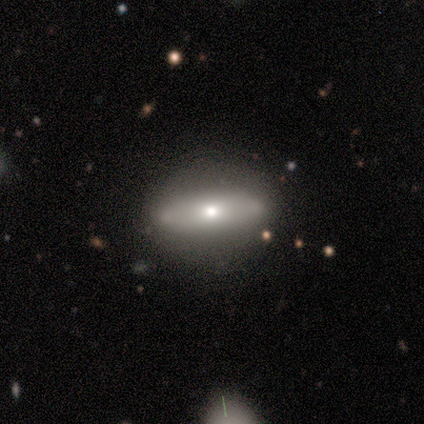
Smooth or featured? featured or disk (60%)
Edge-on disk? no (67%)
Bar? no (100%)
Spiral arms? no (100%)
Bulge size? moderate (100%)
Merging? none (100%)